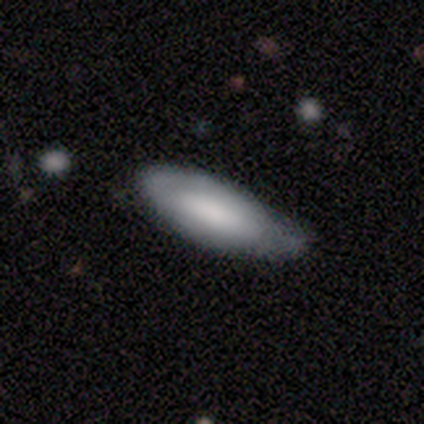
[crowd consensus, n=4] Consensus on every question: smooth or featured — smooth (100%); how rounded — cigar-shaped (100%); merging — none (100%).